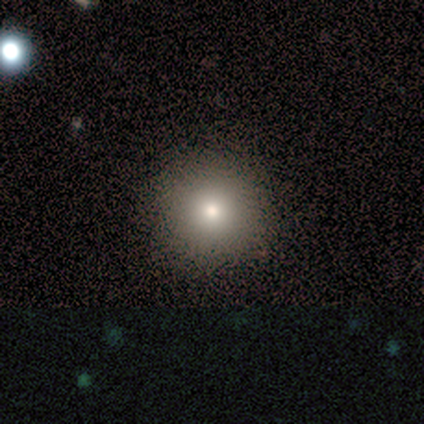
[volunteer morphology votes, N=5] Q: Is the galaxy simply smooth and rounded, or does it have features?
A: smooth — 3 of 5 (60%).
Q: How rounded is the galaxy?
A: round — 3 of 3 (100%).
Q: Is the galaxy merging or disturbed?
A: none — 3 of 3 (100%).